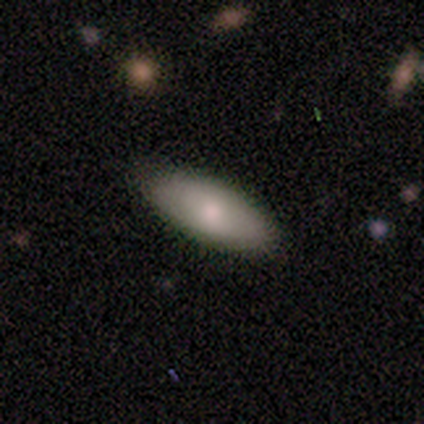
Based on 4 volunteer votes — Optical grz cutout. It shows a smooth galaxy with no disk features (100%) that is in between round and cigar-shaped (100%). Merging: none (100%).